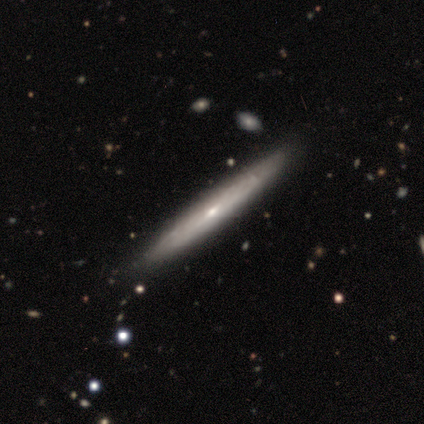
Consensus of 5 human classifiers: Volunteers were most divided on "edge-on bulge" (2-way tie): none: 50%, rounded: 50%, boxy: 0%. More confident: edge-on disk — yes (100%); merging — none (100%); smooth or featured — featured or disk (80%).